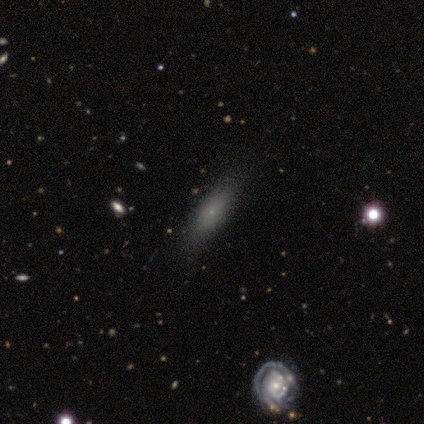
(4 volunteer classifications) smooth 50% (tied), featured or disk 50% (tied), star or artifact 0%. Down the decision tree: how rounded — in between (50%, tied with cigar-shaped); merging — none (75%).